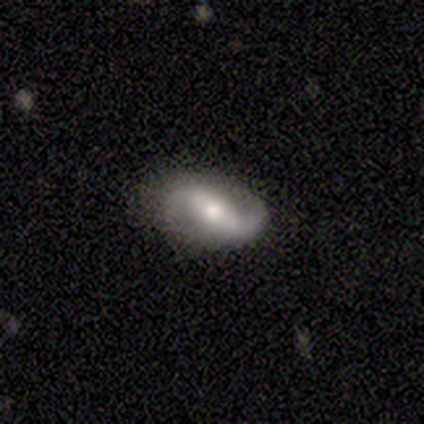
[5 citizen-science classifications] A featured or disk galaxy (80%) with a weak bar (50%), 2 (75%) loose (100%) spiral arms (100%) and a moderate central bulge (50%).

Vote fractions:
- Smooth or featured? featured or disk: 80% / star or artifact: 20% / smooth: 0%
- Edge-on disk? no: 100% / yes: 0%
- Bar? weak: 50% / strong: 25% / no: 25%
- Spiral arms? yes: 100% / no: 0%
- Spiral winding? loose: 100% / tight: 0% / medium: 0%
- Spiral arm count? 2: 75% / 1: 25% / 3: 0% / 4: 0% / more than 4: 0% / can't tell: 0%
- Bulge size? moderate: 50% / large: 25% / small: 25% / dominant: 0% / none: 0%
- Merging? none: 100% / minor disturbance: 0% / major disturbance: 0% / merger: 0%